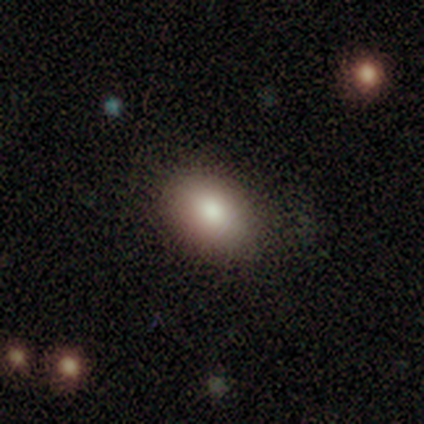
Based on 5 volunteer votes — A smooth galaxy with no disk features (100%) that is in between round and cigar-shaped (100%). Merging: none (100%).